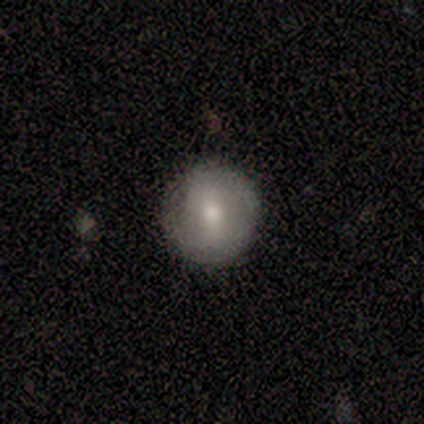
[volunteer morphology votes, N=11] Volunteers were most divided on "smooth or featured": smooth: 73%, featured or disk: 27%, star or artifact: 0%. More confident: how rounded — round (100%); merging — none (91%).